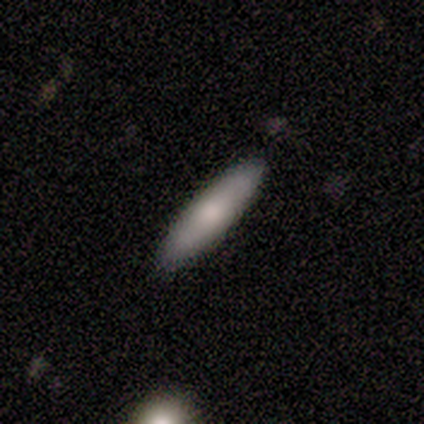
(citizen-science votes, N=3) A smooth galaxy with no disk features (67%) that is in between round and cigar-shaped (50%, tied with cigar-shaped).

Vote fractions:
- Smooth or featured? smooth: 67% / star or artifact: 33% / featured or disk: 0%
- How rounded? in between: 50% (tied) / cigar-shaped: 50% (tied) / round: 0%
- Merging? none: 100% / minor disturbance: 0% / major disturbance: 0% / merger: 0%